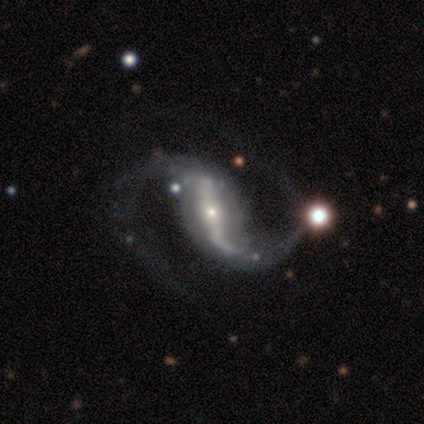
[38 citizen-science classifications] Smooth or featured? 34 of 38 (89%) said featured or disk. Edge-on disk? 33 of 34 (97%) said no. Bar? 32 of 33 (97%) said strong. Spiral arms? 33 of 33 (100%) said yes. Spiral winding? 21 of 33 (64%) said loose. Spiral arm count? 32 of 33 (97%) said 2. Bulge size? 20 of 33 (61%) said small. Merging? 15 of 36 (42%) said none.